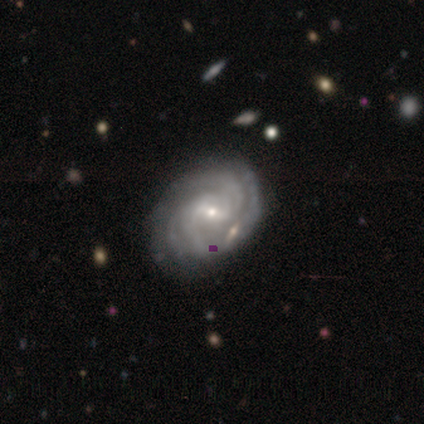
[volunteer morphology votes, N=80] Overall: featured or disk (88%). Edge-on disk: no (100%). Bar: weak (61%; strong 23%). Spiral arms: yes (100%). Spiral arm count: 2 (33%; can't tell 23%). Spiral winding: tight (63%; medium 29%). Bulge size: small (71%). Merging: none (42%; merger 7%).